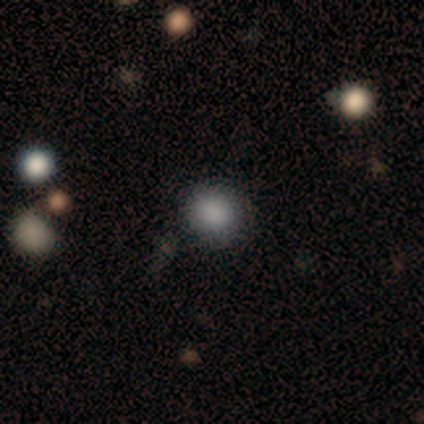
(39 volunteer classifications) A smooth galaxy with no disk features (87%) that is round (79%). Merging: none (86%).